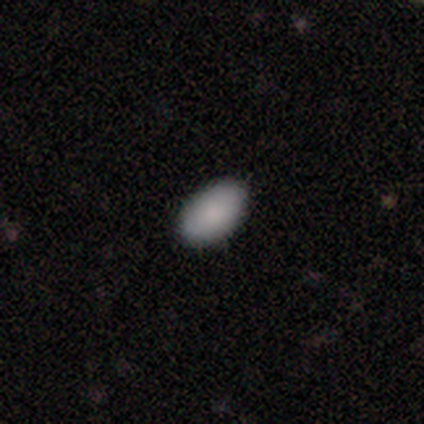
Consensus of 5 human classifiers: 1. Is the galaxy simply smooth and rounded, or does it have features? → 100% smooth, 0% featured or disk, 0% star or artifact.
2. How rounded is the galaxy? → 100% in between, 0% round, 0% cigar-shaped.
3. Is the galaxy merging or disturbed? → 80% none, 20% minor disturbance, 0% major disturbance, 0% merger.